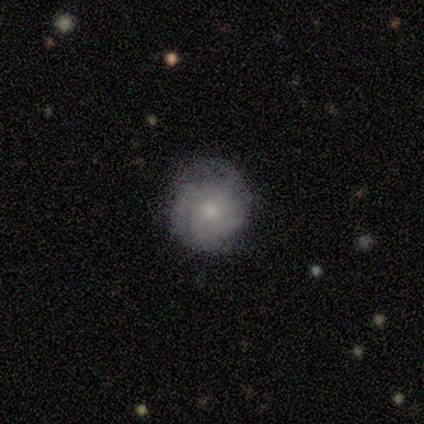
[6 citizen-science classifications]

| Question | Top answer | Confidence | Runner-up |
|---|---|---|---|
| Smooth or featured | smooth | 50% | featured or disk (33%) |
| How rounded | round | 100% | — |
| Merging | none | 100% | — |